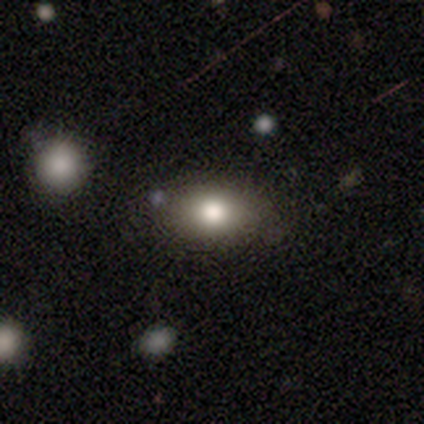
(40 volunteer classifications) This is clearly a smooth galaxy (85%). How rounded: likely in between (74%). Merging: clearly none (92%).